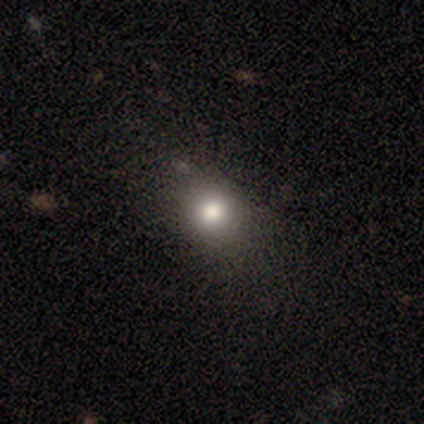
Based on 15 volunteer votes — Smooth or featured? smooth (80%)
How rounded? round (83%)
Merging? none (75%)